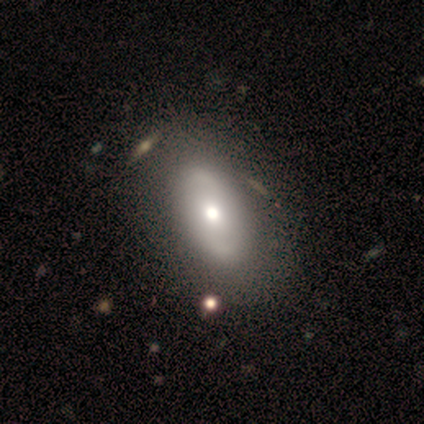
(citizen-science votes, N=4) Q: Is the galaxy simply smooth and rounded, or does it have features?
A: smooth — 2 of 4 (50%, tied with featured or disk).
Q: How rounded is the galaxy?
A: in between — 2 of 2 (100%).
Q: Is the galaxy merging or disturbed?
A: none — 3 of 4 (75%).